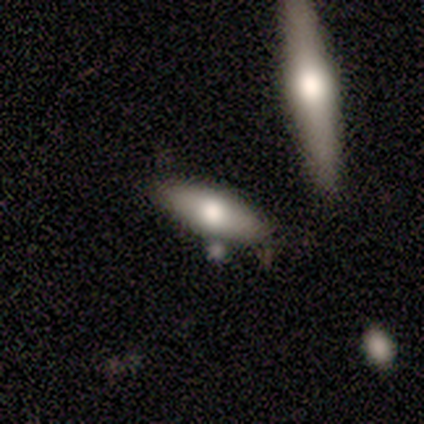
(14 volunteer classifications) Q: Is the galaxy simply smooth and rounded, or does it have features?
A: smooth — 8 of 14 (57%).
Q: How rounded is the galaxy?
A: in between — 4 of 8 (50%).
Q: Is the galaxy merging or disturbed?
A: none — 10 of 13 (77%).